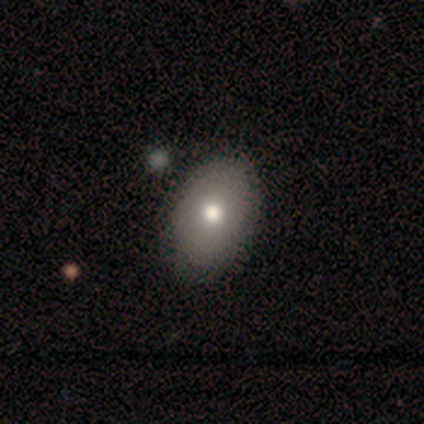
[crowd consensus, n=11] Smooth or featured: smooth — 82% (featured or disk — 18%)
How rounded: in between — 89% (round — 11%)
Merging: none — 91% (minor disturbance — 9%)